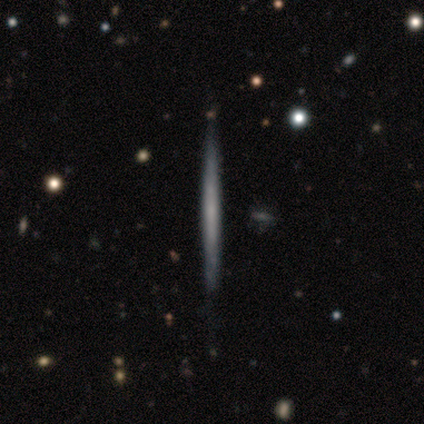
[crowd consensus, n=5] featured or disk 60%, smooth 40%, star or artifact 0%. Down the decision tree: edge-on disk — yes (100%); edge-on bulge — none (67%); merging — none (40%, tied with major disturbance).